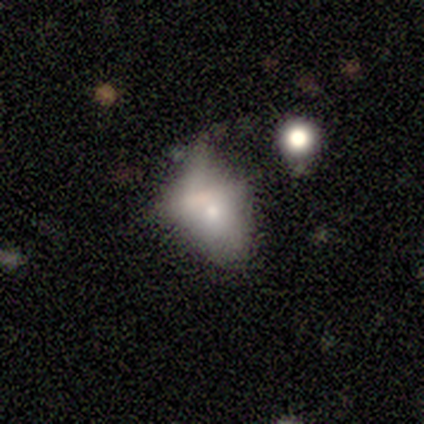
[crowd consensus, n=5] Volunteers were most divided on "smooth or featured" (2-way tie): smooth: 40%, featured or disk: 40%, star or artifact: 20%. More confident: how rounded — in between (100%); merging — major disturbance (50%).